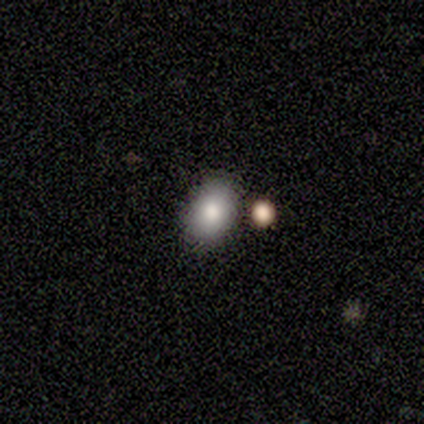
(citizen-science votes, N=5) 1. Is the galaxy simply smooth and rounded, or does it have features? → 80% smooth, 20% star or artifact, 0% featured or disk.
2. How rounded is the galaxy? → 100% in between, 0% round, 0% cigar-shaped.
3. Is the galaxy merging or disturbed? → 100% none, 0% minor disturbance, 0% major disturbance, 0% merger.